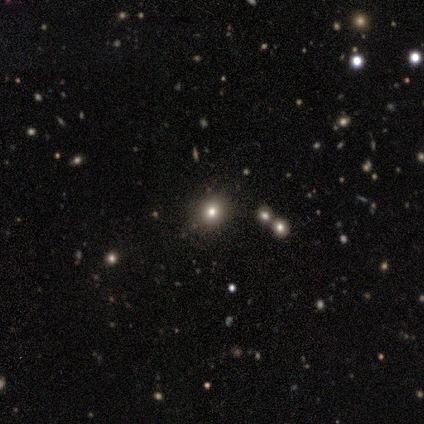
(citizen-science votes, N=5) A smooth galaxy with no disk features (60%) that is round (67%). Merging: none (67%).